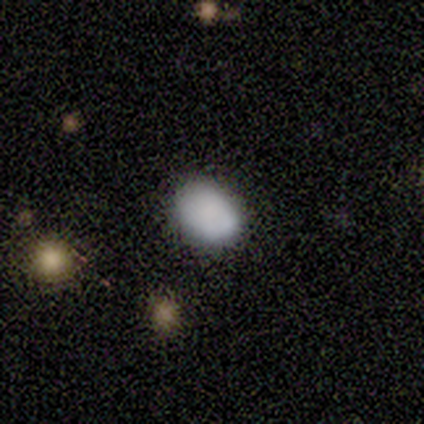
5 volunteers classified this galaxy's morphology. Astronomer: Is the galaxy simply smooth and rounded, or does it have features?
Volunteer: smooth — 80%.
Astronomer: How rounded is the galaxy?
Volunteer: in between — 75%.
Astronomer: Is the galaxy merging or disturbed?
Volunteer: none — 100%.